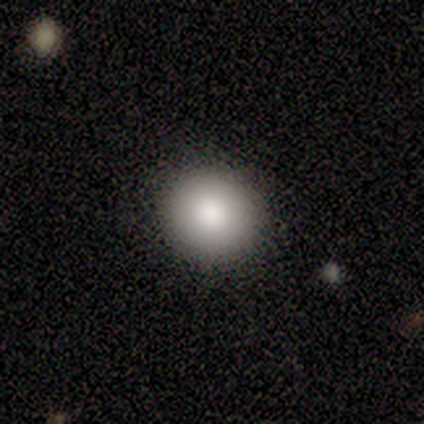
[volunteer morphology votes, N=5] type=smooth (100%); roundness=round (100%); merging=none (100%).